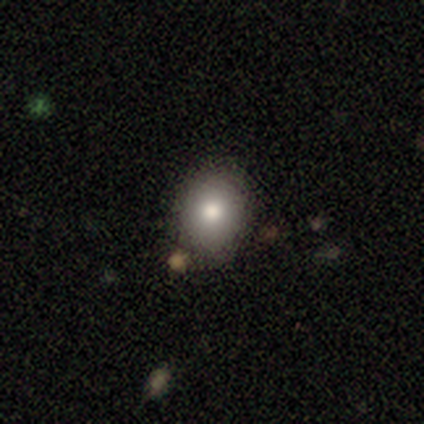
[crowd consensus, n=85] Smooth or featured: smooth — 82% (star or artifact — 9%)
How rounded: round — 53% (in between — 47%)
Merging: none — 73% (minor disturbance — 18%)